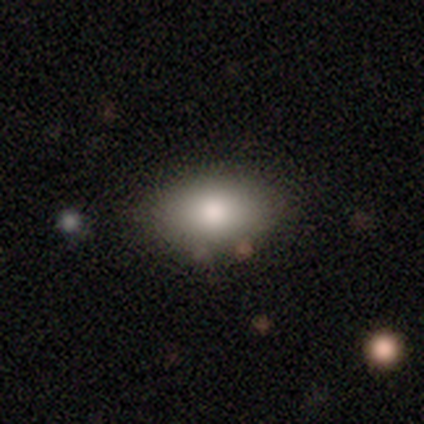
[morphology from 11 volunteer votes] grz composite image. It shows a smooth galaxy with no disk features (100%) that is in between round and cigar-shaped (91%). Merging: none (73%).